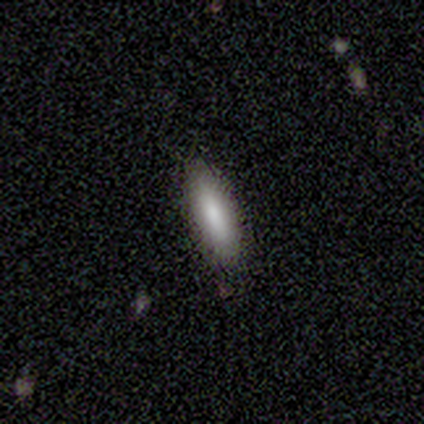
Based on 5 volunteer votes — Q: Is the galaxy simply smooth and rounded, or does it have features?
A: smooth — 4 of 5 (80%).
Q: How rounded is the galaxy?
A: in between — 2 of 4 (50%, tied with cigar-shaped).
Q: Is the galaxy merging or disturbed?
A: none — 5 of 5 (100%).